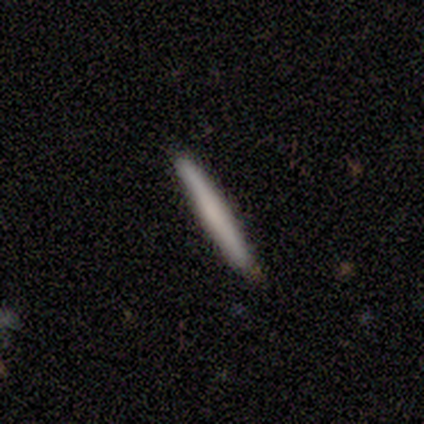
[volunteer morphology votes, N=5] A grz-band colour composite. It shows a smooth galaxy with no disk features (80%) that is cigar-shaped (100%). Merging: none (100%).